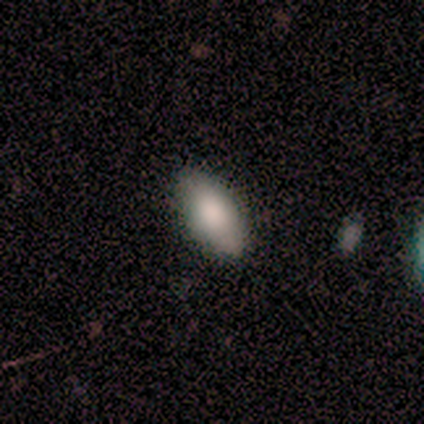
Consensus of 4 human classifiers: Smooth or featured?
  - smooth: 75% *
  - star or artifact: 25%
  - featured or disk: 0%
How rounded?
  - in between: 100% *
  - round: 0%
  - cigar-shaped: 0%
Merging?
  - none: 100% *
  - minor disturbance: 0%
  - major disturbance: 0%
  - merger: 0%